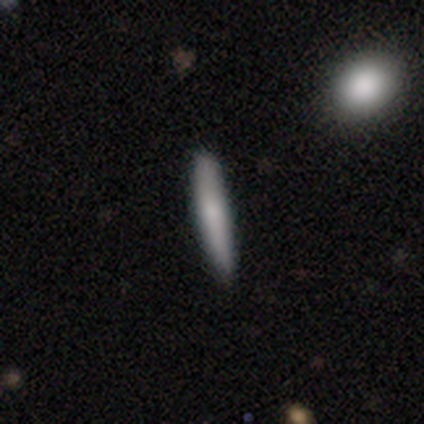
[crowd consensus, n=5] This is clearly a smooth galaxy (100%). How rounded: clearly cigar-shaped (100%). Merging: clearly none (100%).